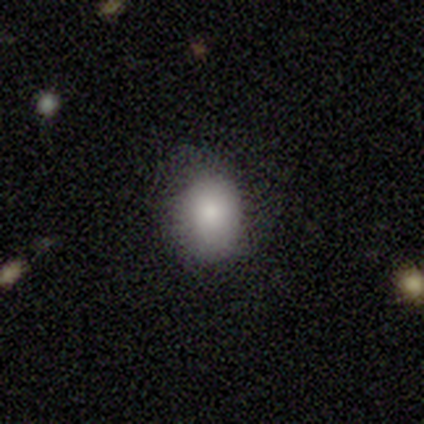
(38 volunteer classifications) Overall: smooth (92%). How rounded: in between (66%; round 34%). Merging: none (81%).